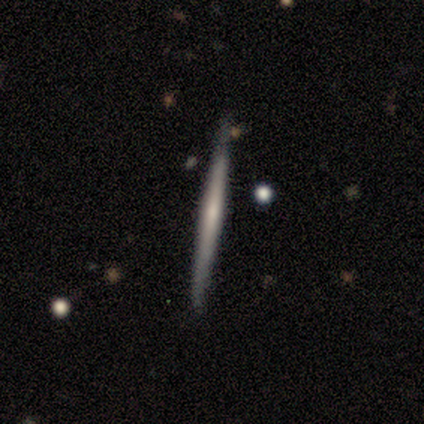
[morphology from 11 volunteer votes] This is likely a featured or disk galaxy (64%). It is clearly viewed edge-on (100%). Edge-on bulge: marginally none (43%, tied with rounded). Merging: clearly none (100%).